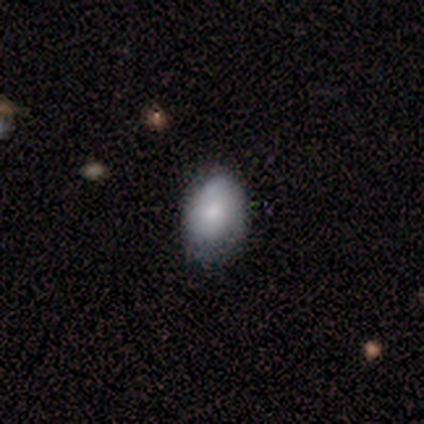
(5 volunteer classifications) Smooth or featured: smooth — 80% (featured or disk — 20%)
How rounded: in between — 75% (round — 25%)
Merging: none — 100%